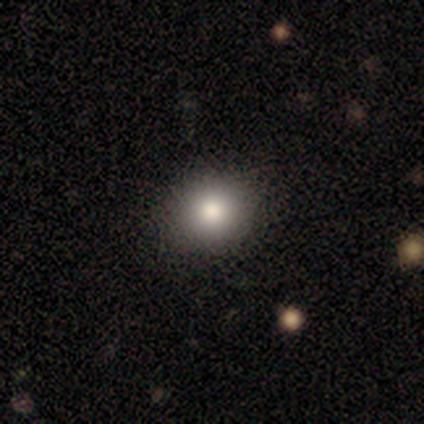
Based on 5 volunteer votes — Q: Smooth or featured?
A: smooth (80%); runner-up: star or artifact (20%)
Q: How rounded?
A: round (100%)
Q: Merging?
A: none (75%); runner-up: minor disturbance (25%)